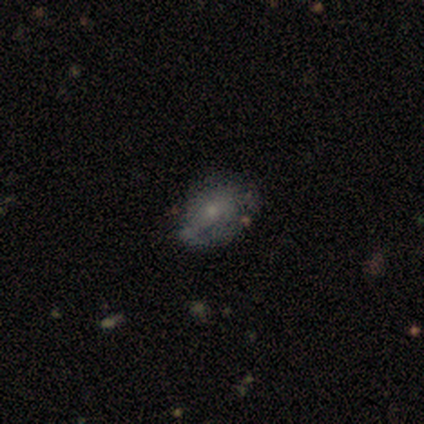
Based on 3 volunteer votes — smooth-or-featured: smooth: 67% | featured or disk: 33% | star or artifact: 0%
  how-rounded: round: 50% (tied) | in between: 50% (tied) | cigar-shaped: 0%
  merging: major disturbance: 67% | none: 33% | minor disturbance: 0% | merger: 0%